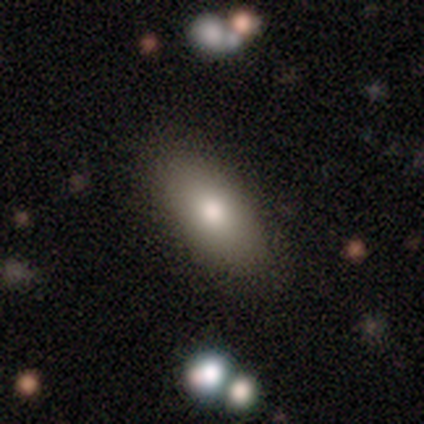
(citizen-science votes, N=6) smooth-or-featured: smooth: 83% | star or artifact: 17% | featured or disk: 0%
  how-rounded: in between: 100% | round: 0% | cigar-shaped: 0%
  merging: none: 80% | minor disturbance: 20% | major disturbance: 0% | merger: 0%